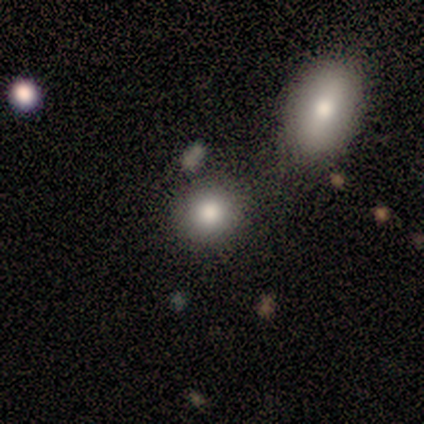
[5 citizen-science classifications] Q: Smooth or featured?
A: smooth (80%); runner-up: star or artifact (20%)
Q: How rounded?
A: round (100%)
Q: Merging?
A: none (50%); tied with: merger (50%)